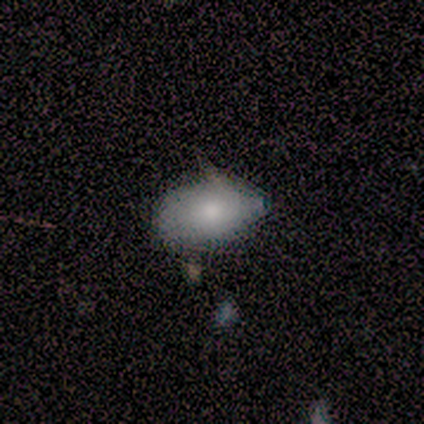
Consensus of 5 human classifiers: Volunteers were most divided on "smooth or featured": smooth: 80%, featured or disk: 20%, star or artifact: 0%. More confident: how rounded — in between (100%); merging — minor disturbance (80%).